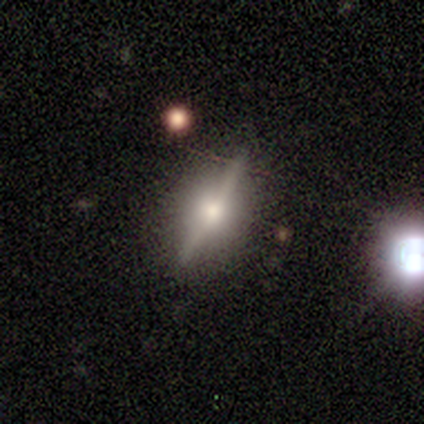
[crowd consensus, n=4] Smooth or featured?
  - featured or disk: 100% *
  - smooth: 0%
  - star or artifact: 0%
Edge-on disk?
  - yes: 100% *
  - no: 0%
Edge-on bulge?
  - rounded: 100% *
  - boxy: 0%
  - none: 0%
Merging?
  - none: 100% *
  - minor disturbance: 0%
  - major disturbance: 0%
  - merger: 0%